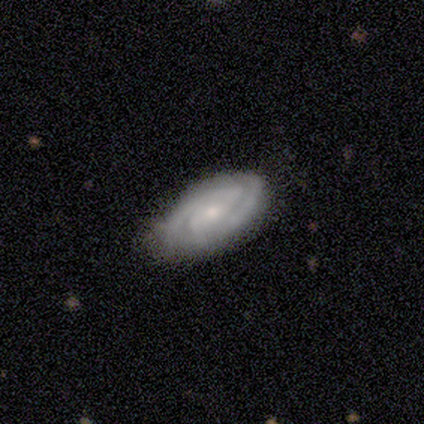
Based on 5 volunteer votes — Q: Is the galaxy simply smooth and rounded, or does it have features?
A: featured or disk — 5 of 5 (100%).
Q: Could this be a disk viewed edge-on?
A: no — 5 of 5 (100%).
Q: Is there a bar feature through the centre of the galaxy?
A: no — 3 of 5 (60%).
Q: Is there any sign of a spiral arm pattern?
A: yes — 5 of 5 (100%).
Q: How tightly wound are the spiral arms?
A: tight — 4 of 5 (80%).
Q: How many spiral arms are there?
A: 2 — 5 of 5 (100%).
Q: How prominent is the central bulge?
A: small — 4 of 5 (80%).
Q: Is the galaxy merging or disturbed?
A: none — 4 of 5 (80%).